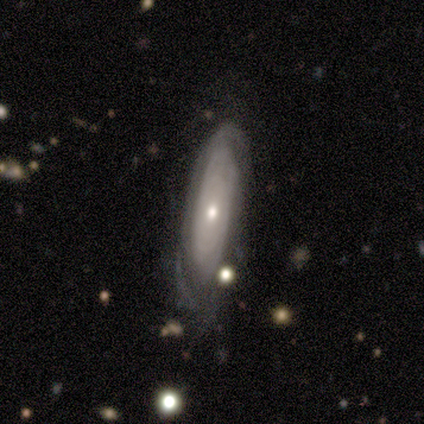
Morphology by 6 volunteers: Q: Smooth or featured?
A: featured or disk (83%); runner-up: smooth (17%)
Q: Edge-on disk?
A: no (80%); runner-up: yes (20%)
Q: Bar?
A: no (75%); runner-up: weak (25%)
Q: Spiral arms?
A: yes (50%); tied with: no (50%)
Q: Spiral winding?
A: tight (100%)
Q: Spiral arm count?
A: can't tell (100%)
Q: Bulge size?
A: small (75%); runner-up: moderate (25%)
Q: Merging?
A: none (67%); runner-up: minor disturbance (33%)